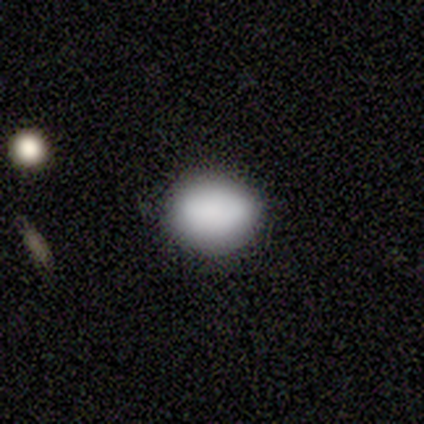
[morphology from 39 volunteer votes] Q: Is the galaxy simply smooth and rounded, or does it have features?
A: smooth — 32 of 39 (82%).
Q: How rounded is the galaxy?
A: round — 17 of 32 (53%).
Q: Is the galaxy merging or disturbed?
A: none — 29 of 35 (83%).